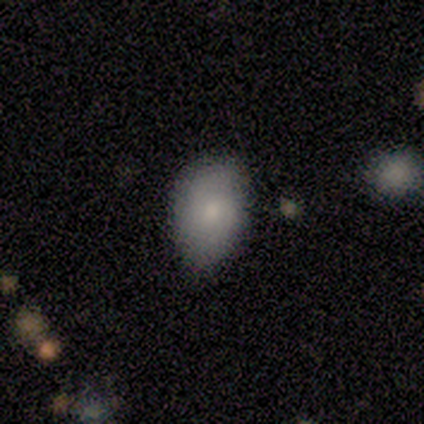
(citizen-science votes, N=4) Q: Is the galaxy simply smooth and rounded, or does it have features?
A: featured or disk — 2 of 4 (50%).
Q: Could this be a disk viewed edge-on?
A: no — 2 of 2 (100%).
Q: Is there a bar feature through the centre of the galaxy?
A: weak — 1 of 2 (50%, tied with no).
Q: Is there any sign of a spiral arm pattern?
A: no — 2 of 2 (100%).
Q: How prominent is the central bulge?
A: small — 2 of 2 (100%).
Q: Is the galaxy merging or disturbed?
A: none — 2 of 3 (67%).